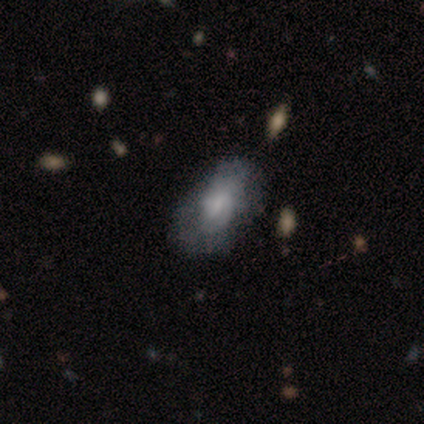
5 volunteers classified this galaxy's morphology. Smooth or featured?
  - smooth: 80% *
  - featured or disk: 20%
  - star or artifact: 0%
How rounded?
  - in between: 100% *
  - round: 0%
  - cigar-shaped: 0%
Merging?
  - none: 40% * (tied)
  - major disturbance: 40% * (tied)
  - minor disturbance: 20%
  - merger: 0%